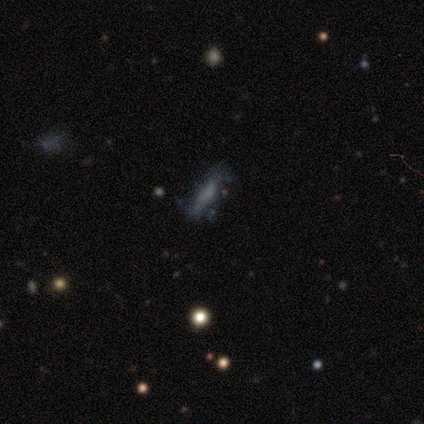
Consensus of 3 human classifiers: Morphology: type=smooth (100%); roundness=cigar-shaped (100%); merging=none (67%).